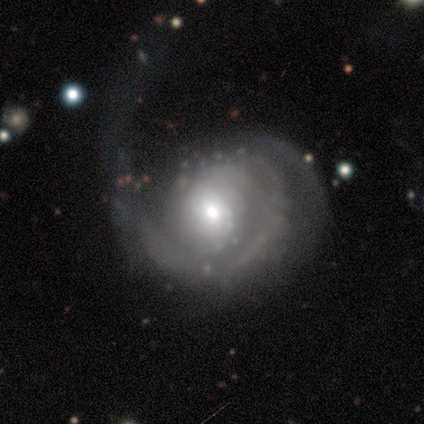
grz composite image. It shows a featured or disk galaxy (86%) with no bar (75%), 1 (46%) tight (37%) spiral arms (85%) and a moderate central bulge (64%). Merging: major disturbance (26%).